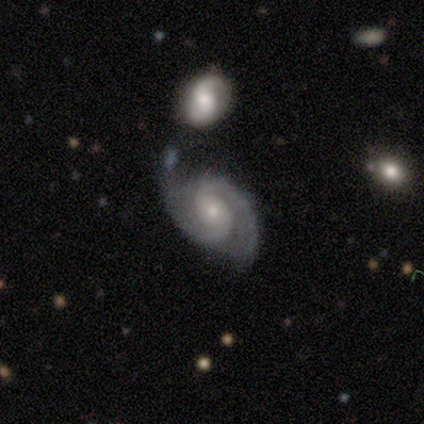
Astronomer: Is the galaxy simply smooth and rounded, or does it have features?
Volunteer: featured or disk — 96%.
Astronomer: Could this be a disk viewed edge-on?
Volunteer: no — 96%.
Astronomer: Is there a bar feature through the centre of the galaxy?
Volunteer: no — 59%.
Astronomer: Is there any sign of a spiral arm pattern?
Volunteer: yes — 98%.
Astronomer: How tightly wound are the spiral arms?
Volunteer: medium — 53% (runner-up: tight, 37%).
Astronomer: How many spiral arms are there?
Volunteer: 2 — 91%.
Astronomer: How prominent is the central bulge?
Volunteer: small — 59% (runner-up: moderate, 36%).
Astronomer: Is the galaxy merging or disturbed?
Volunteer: none — 63%.